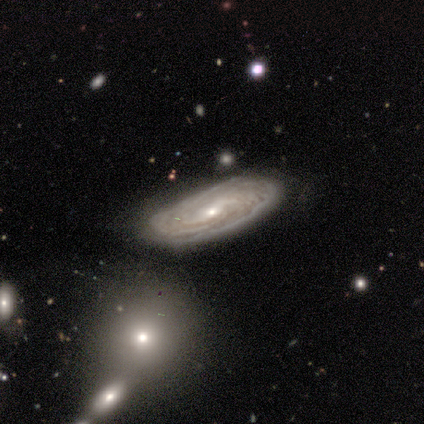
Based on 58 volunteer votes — Q: Smooth or featured?
A: featured or disk (88%); runner-up: star or artifact (7%)
Q: Edge-on disk?
A: no (96%); runner-up: yes (4%)
Q: Bar?
A: no (49%); runner-up: weak (47%)
Q: Spiral arms?
A: yes (96%); runner-up: no (4%)
Q: Spiral winding?
A: tight (77%); runner-up: medium (17%)
Q: Spiral arm count?
A: can't tell (62%); runner-up: more than 4 (15%)
Q: Bulge size?
A: small (63%); runner-up: moderate (37%)
Q: Merging?
A: none (70%); runner-up: minor disturbance (24%)